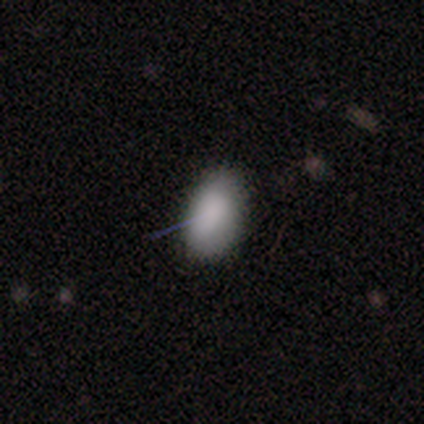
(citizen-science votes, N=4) Smooth or featured: smooth — 100%
How rounded: in between — 100%
Merging: none — 100%